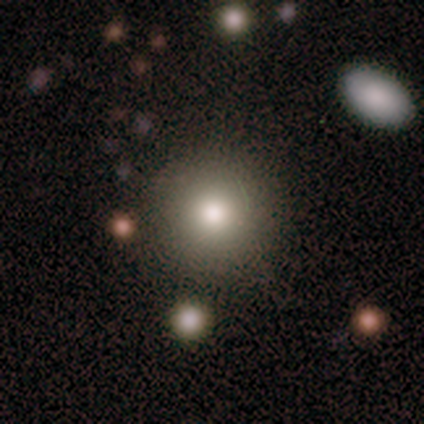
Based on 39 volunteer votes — Overall: smooth (74%). How rounded: round (83%). Merging: none (73%).